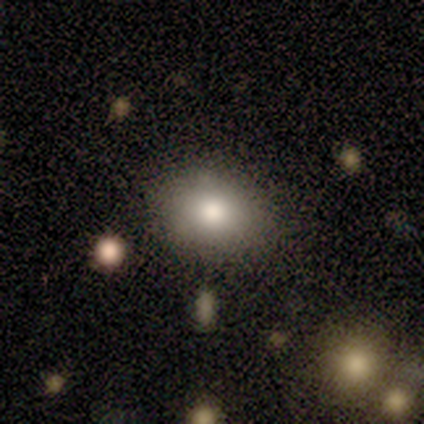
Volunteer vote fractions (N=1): A smooth galaxy with no disk features (100%) that is round (100%).

Vote fractions:
- Smooth or featured? smooth: 100% / featured or disk: 0% / star or artifact: 0%
- How rounded? round: 100% / in between: 0% / cigar-shaped: 0%
- Merging? none: 100% / minor disturbance: 0% / major disturbance: 0% / merger: 0%